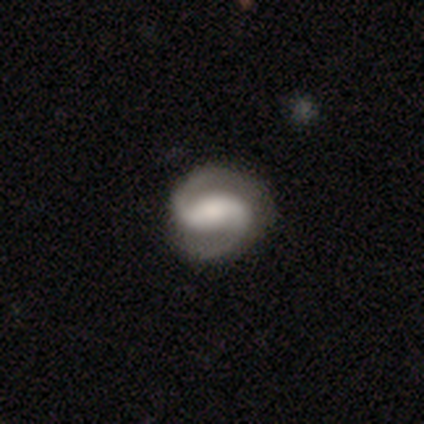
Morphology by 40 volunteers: smooth_or_featured: featured or disk (p=0.93) [alt: smooth p=0.07]
disk_edge_on: no (p=1.00)
bar: weak (p=0.49) [alt: strong p=0.41]
has_spiral_arms: yes (p=1.00)
spiral_winding: medium (p=0.57) [alt: tight p=0.22]
spiral_arm_count: 2 (p=1.00)
bulge_size: large (p=0.41) [alt: moderate p=0.22]
merging: none (p=0.78) [alt: minor disturbance p=0.17]